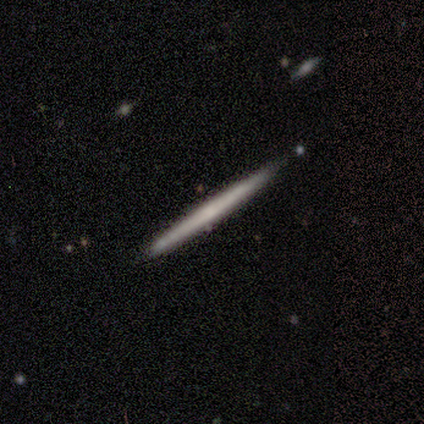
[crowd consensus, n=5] This appears to be a featured or disk galaxy (60%) viewed edge-on (100%) with no central bulge (100%). Merging: none (100%).